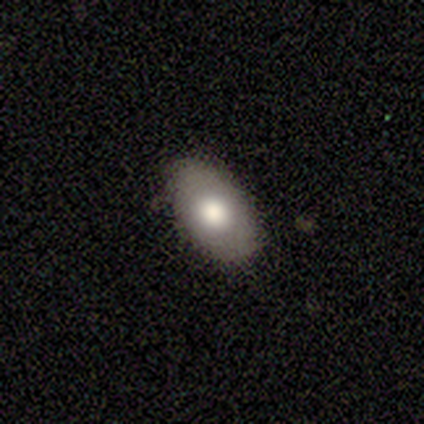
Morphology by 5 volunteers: Smooth or featured: smooth — 80% (featured or disk — 20%)
How rounded: in between — 100%
Merging: none — 80% (minor disturbance — 20%)